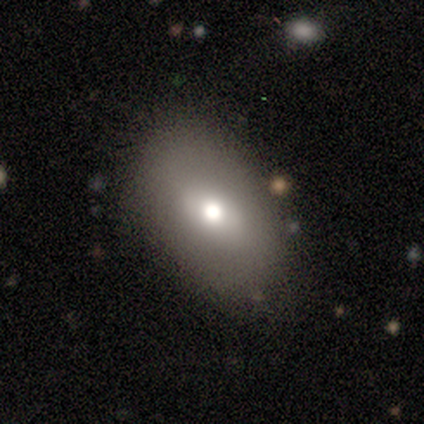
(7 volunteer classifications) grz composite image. It shows a smooth galaxy with no disk features (86%) that is in between round and cigar-shaped (83%). Merging: none (57%).